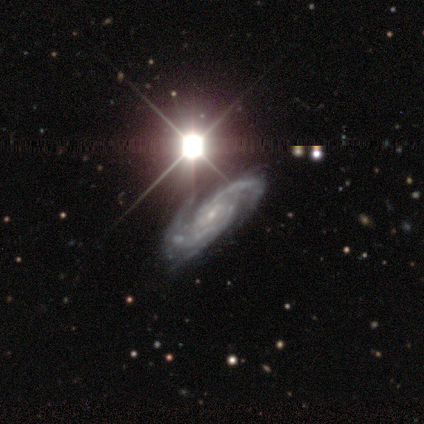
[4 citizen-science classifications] This is clearly a featured or disk galaxy (100%). It is clearly not viewed edge-on (100%). Bar: likely no (75%). Spiral arm pattern: clearly yes (100%). Spiral arm count: likely 2 (75%). Spiral winding: possibly tight (50%, tied with medium). Central bulge: clearly small (100%). Merging: possibly minor disturbance (50%).